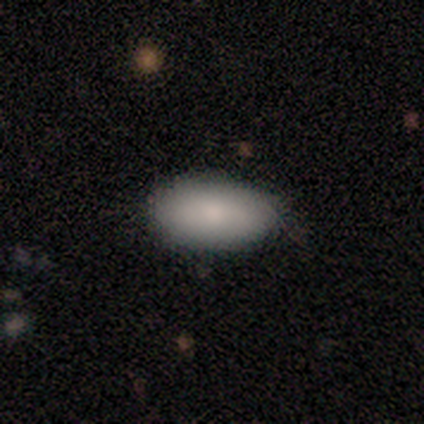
smooth-or-featured: smooth: 100% | featured or disk: 0% | star or artifact: 0%
  how-rounded: in between: 100% | round: 0% | cigar-shaped: 0%
  merging: none: 80% | minor disturbance: 20% | major disturbance: 0% | merger: 0%